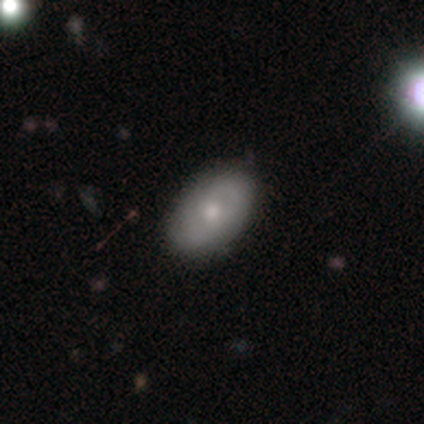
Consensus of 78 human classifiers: Volunteers were most divided on "smooth or featured": smooth: 54%, featured or disk: 44%, star or artifact: 3%. Remaining: how rounded — in between (90%); merging — none (46%).